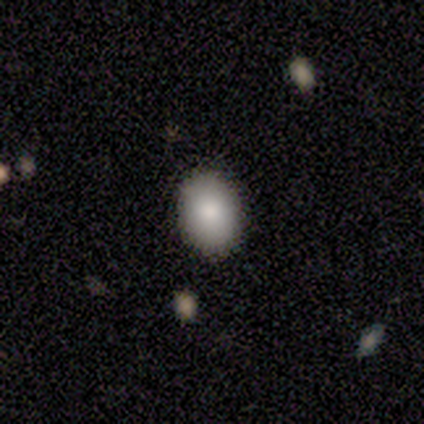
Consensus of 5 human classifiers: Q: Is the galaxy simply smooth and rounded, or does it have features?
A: smooth — 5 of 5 (100%).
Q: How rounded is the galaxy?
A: in between — 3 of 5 (60%).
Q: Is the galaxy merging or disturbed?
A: none — 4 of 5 (80%).